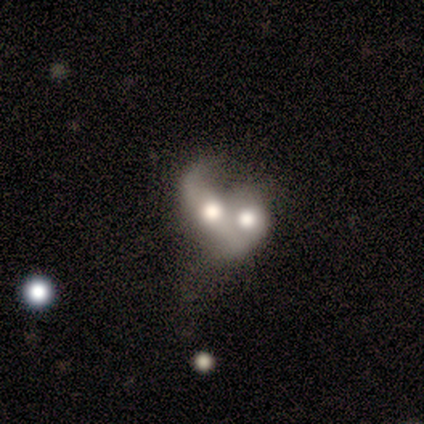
smooth_or_featured: featured or disk (p=1.00)
disk_edge_on: no (p=1.00)
bar: no (p=0.80) [alt: weak p=0.20]
has_spiral_arms: no (p=0.60) [alt: yes p=0.40]
bulge_size: large (p=0.40) [tied with: moderate p=0.40]
merging: merger (p=0.80) [alt: major disturbance p=0.20]